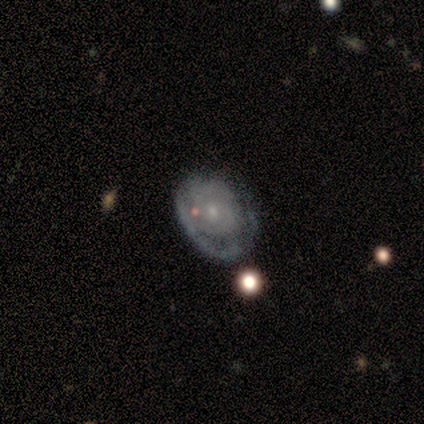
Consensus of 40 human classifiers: smooth_or_featured: featured or disk (p=0.72) [alt: smooth p=0.23]
disk_edge_on: no (p=1.00)
bar: no (p=0.76) [alt: weak p=0.24]
has_spiral_arms: yes (p=0.72) [alt: no p=0.28]
spiral_winding: tight (p=0.81) [alt: medium p=0.14]
spiral_arm_count: can't tell (p=0.48) [alt: 2 p=0.29]
bulge_size: small (p=0.90) [alt: moderate p=0.10]
merging: minor disturbance (p=0.45) [alt: none p=0.37]